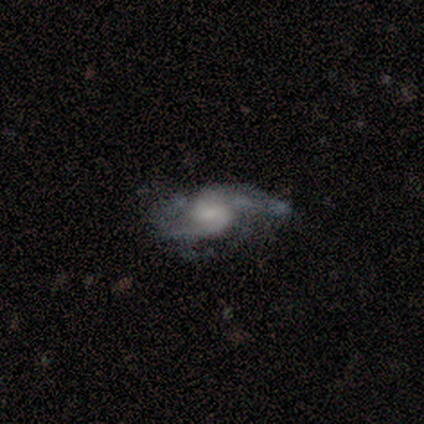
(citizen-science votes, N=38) Smooth or featured? 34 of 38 (89%) said featured or disk. Edge-on disk? 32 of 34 (94%) said no. Bar? 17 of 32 (53%) said no. Spiral arms? 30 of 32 (94%) said yes. Spiral winding? 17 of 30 (57%) said medium. Spiral arm count? 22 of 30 (73%) said 2. Bulge size? 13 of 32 (41%) said small. Merging? 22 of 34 (65%) said none.